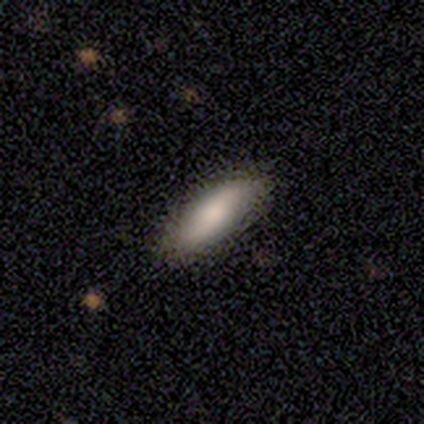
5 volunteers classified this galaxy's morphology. Smooth or featured: smooth — 80% (featured or disk — 20%)
How rounded: in between — 50% (tied with cigar-shaped — 50%)
Merging: none — 80% (minor disturbance — 20%)